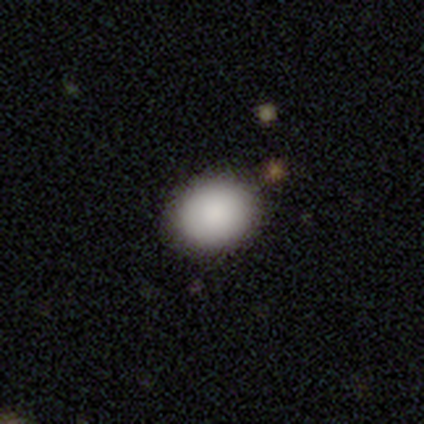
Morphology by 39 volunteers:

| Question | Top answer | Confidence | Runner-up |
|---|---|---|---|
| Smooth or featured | smooth | 87% | star or artifact (8%) |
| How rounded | round | 56% | in between (44%) |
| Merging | none | 92% | minor disturbance (8%) |